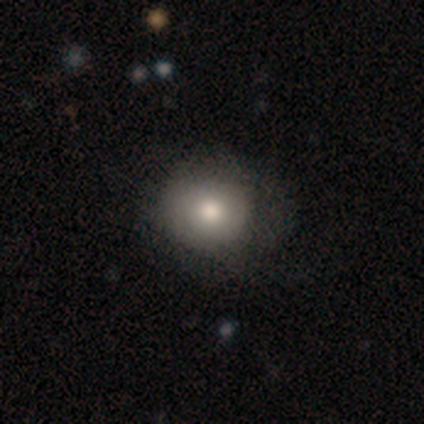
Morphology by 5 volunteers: Overall: smooth (100%). How rounded: round (80%). Merging: none (60%; minor disturbance 40%).